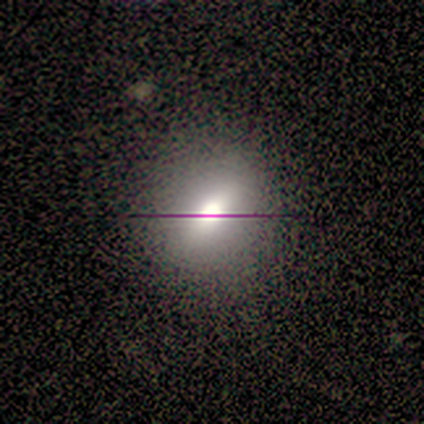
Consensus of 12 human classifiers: smooth-or-featured: smooth: 50% | star or artifact: 33% | featured or disk: 17%
  how-rounded: round: 67% | in between: 33% | cigar-shaped: 0%
  merging: none: 100% | minor disturbance: 0% | major disturbance: 0% | merger: 0%